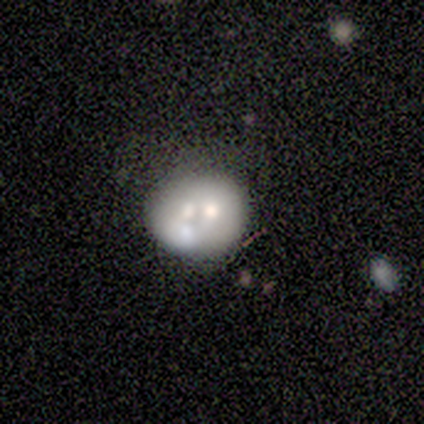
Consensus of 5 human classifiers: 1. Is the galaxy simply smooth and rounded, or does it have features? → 100% featured or disk, 0% smooth, 0% star or artifact.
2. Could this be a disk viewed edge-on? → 100% no, 0% yes.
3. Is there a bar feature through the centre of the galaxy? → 100% no, 0% strong, 0% weak.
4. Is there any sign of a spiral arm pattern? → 100% no, 0% yes.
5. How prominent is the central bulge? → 60% moderate, 40% none, 0% dominant, 0% large, 0% small.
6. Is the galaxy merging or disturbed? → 60% none, 40% merger, 0% minor disturbance, 0% major disturbance.